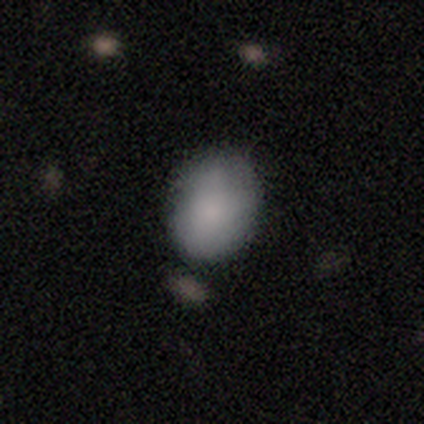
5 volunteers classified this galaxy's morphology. Smooth or featured? 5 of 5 (100%) said smooth. How rounded? 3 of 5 (60%) said in between. Merging? 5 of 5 (100%) said none.